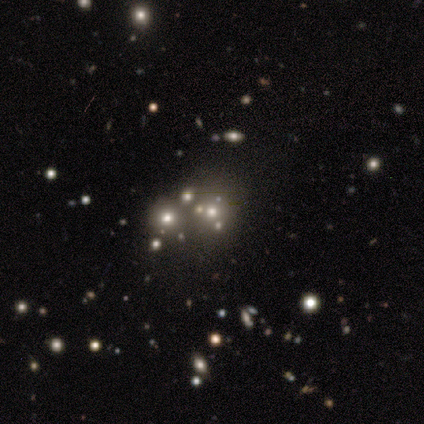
Smooth or featured: smooth — 67% (star or artifact — 33%)
How rounded: round — 50% (tied with in between — 50%)
Merging: none — 50% (tied with merger — 50%)